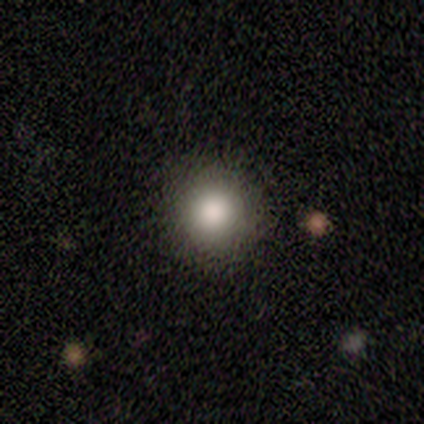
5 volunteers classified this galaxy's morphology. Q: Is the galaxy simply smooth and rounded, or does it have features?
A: smooth — 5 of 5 (100%).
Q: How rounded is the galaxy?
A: round — 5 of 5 (100%).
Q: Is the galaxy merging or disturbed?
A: none — 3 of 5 (60%).